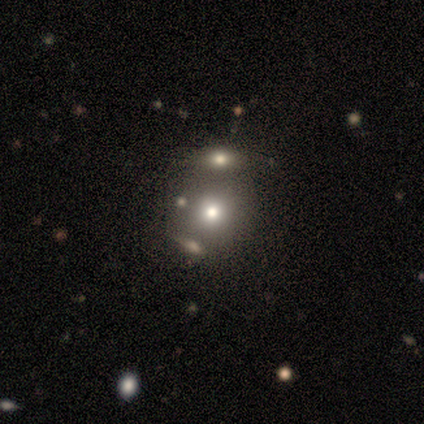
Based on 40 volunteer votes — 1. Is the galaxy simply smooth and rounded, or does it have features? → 60% smooth, 22% star or artifact, 18% featured or disk.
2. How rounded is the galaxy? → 88% round, 12% in between, 0% cigar-shaped.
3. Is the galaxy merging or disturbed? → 55% none, 29% merger, 10% major disturbance, 6% minor disturbance.